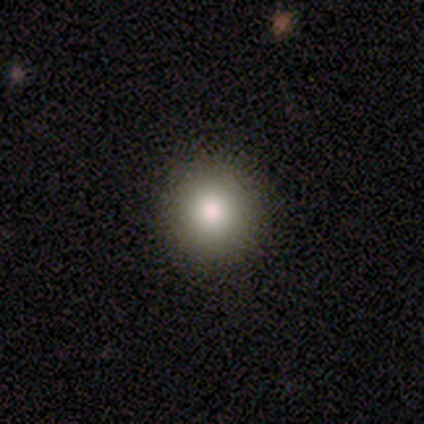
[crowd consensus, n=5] This appears to be a smooth galaxy with no disk features (100%) that is round (100%). Merging: none (80%).